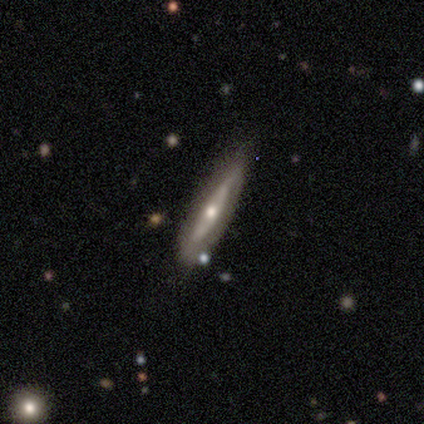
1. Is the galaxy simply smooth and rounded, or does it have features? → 60% featured or disk, 20% smooth, 20% star or artifact.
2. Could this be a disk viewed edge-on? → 67% yes, 33% no.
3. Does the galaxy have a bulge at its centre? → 100% rounded, 0% boxy, 0% none.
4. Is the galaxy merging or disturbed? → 100% none, 0% minor disturbance, 0% major disturbance, 0% merger.